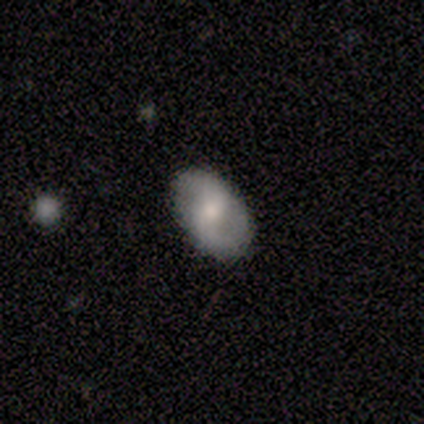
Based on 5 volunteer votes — Volunteers were most divided on "smooth or featured": featured or disk: 60%, smooth: 40%, star or artifact: 0%. More confident: edge-on disk — no (100%); spiral arms — yes (100%); spiral arm count — 2 (100%); merging — none (100%); bar — no (67%); spiral winding — medium (67%); bulge size — moderate (67%).